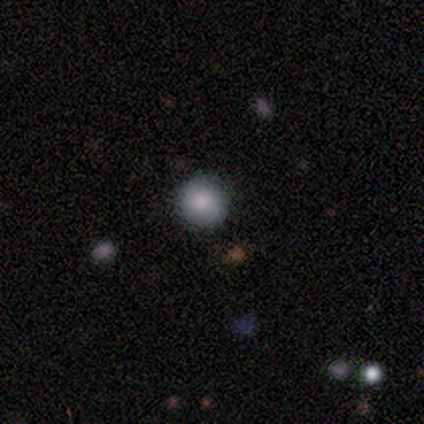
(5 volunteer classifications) A smooth galaxy with no disk features (80%) that is round (100%). Merging: none (60%).